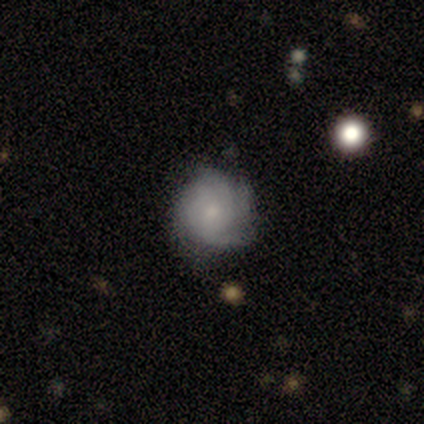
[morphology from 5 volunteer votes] smooth-or-featured: featured or disk: 80% | smooth: 20% | star or artifact: 0%
  disk-edge-on: no: 75% | yes: 25%
    bar: no: 67% | weak: 33% | strong: 0%
    has-spiral-arms: yes: 100% | no: 0%
      spiral-winding: tight: 33% (tied) | medium: 33% (tied) | loose: 33% (tied)
      spiral-arm-count: can't tell: 67% | 3: 33% | 1: 0% | 2: 0% | 4: 0% | more than 4: 0%
    bulge-size: small: 67% | none: 33% | dominant: 0% | large: 0% | moderate: 0%
  merging: none: 100% | minor disturbance: 0% | major disturbance: 0% | merger: 0%